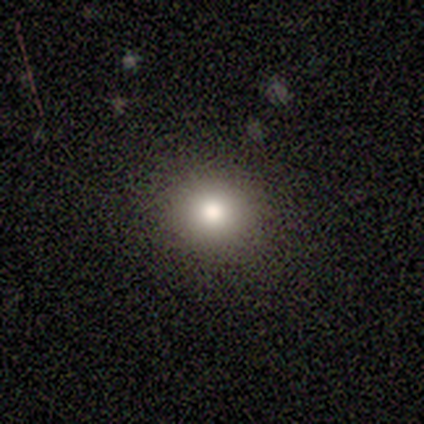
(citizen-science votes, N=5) Volunteers were most divided on "smooth or featured": smooth: 80%, featured or disk: 20%, star or artifact: 0%. More confident: how rounded — round (100%); merging — none (100%).